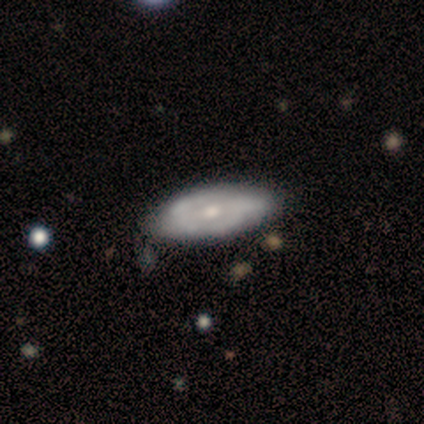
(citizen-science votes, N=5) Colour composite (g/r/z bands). It shows a featured or disk galaxy (60%) with no bar (67%), tight (67%) spiral arms (100%) and a moderate central bulge (100%). Merging: none (80%).